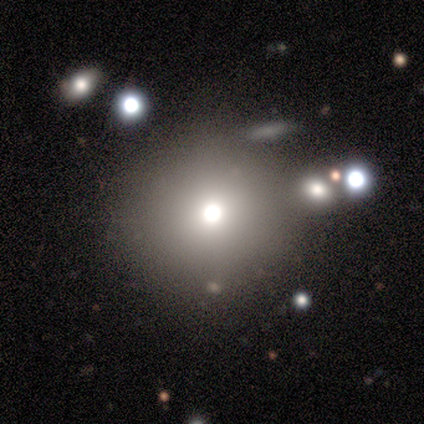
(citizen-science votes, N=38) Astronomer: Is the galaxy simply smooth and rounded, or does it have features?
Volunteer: smooth — 74%.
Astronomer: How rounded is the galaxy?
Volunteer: round — 93%.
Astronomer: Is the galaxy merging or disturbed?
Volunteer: none — 83%.